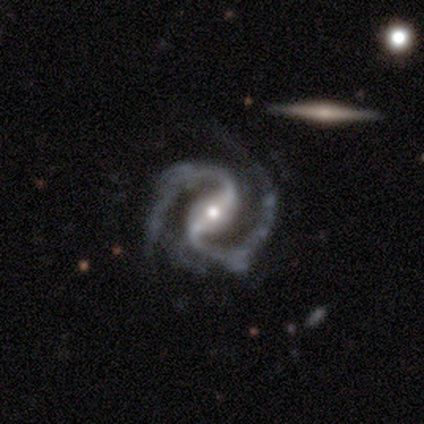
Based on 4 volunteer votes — This is clearly a featured or disk galaxy (100%). It is clearly not viewed edge-on (100%). Bar: likely strong (75%). Spiral arm pattern: clearly yes (100%). Spiral arm count: clearly 2 (100%). Spiral winding: possibly medium (50%). Central bulge: clearly moderate (100%). Merging: possibly none (50%, tied with minor disturbance).